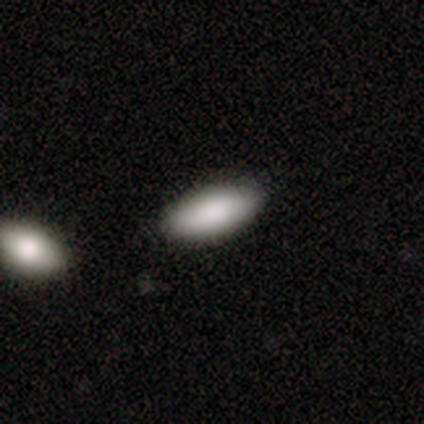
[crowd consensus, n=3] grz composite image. It shows a smooth galaxy with no disk features (100%) that is in between round and cigar-shaped (100%). Merging: none (67%).